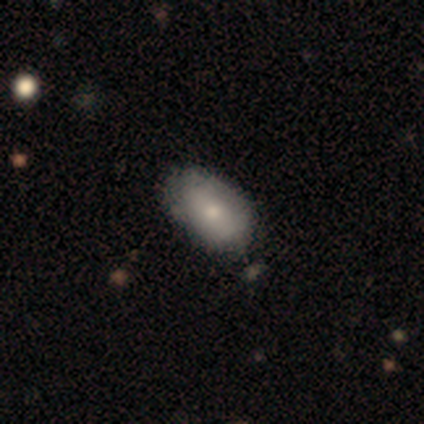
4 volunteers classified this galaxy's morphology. Volunteers were most divided on "merging" (2-way tie): none: 50%, minor disturbance: 50%, major disturbance: 0%, merger: 0%. More confident: how rounded — in between (100%); smooth or featured — smooth (75%).